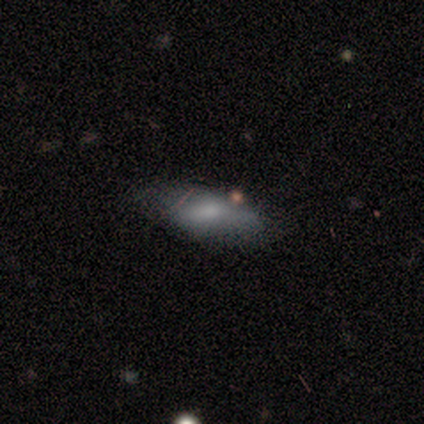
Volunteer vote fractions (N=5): Smooth or featured? smooth (60%)
How rounded? in between (67%)
Merging? none (60%)